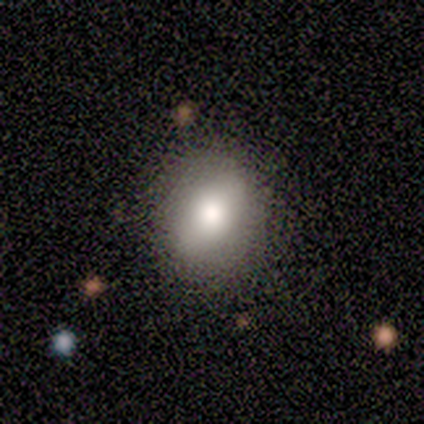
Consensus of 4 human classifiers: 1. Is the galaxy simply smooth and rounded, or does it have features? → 100% smooth, 0% featured or disk, 0% star or artifact.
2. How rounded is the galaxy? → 100% round, 0% in between, 0% cigar-shaped.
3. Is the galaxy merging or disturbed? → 75% none, 25% minor disturbance, 0% major disturbance, 0% merger.